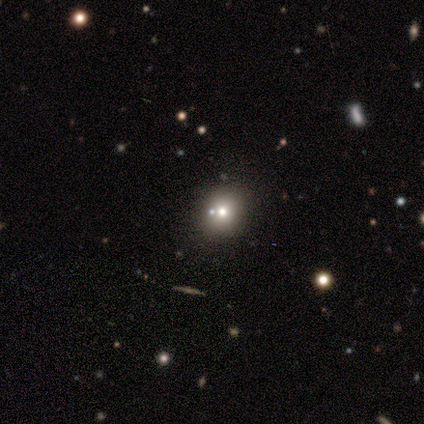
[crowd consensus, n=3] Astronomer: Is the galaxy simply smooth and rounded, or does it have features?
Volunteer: smooth — 67%.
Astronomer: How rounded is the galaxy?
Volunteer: round — 50%, tied with in between at 50%.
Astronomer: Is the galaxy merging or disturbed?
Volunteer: none — 100%.